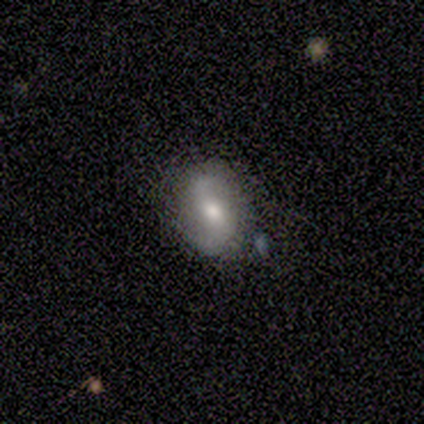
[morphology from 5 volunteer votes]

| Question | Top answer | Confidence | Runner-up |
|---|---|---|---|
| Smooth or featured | featured or disk | 60% | smooth (40%) |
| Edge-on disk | no | 100% | — |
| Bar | weak | 67% | no (33%) |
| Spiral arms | yes | 67% | no (33%) |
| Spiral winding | tight | 50% | tied: medium (50%) |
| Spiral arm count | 2 | 100% | — |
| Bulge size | moderate | 100% | — |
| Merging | none | 60% | minor disturbance (40%) |